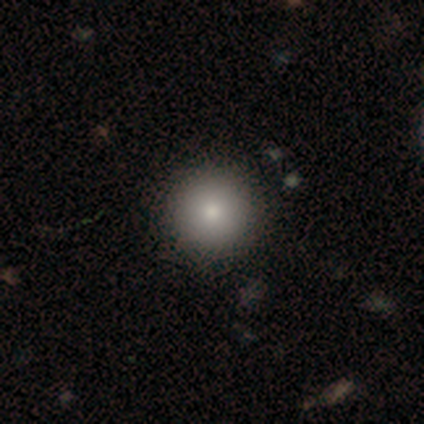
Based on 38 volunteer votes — smooth_or_featured: smooth (p=0.76) [alt: star or artifact p=0.16]
how_rounded: round (p=1.00)
merging: none (p=0.84) [alt: minor disturbance p=0.12]